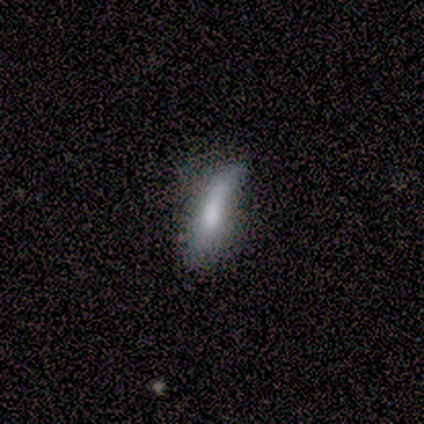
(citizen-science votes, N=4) A smooth galaxy with no disk features (50%) that is in between round and cigar-shaped (50%, tied with cigar-shaped).

Vote fractions:
- Smooth or featured? smooth: 50% / featured or disk: 25% / star or artifact: 25%
- How rounded? in between: 50% (tied) / cigar-shaped: 50% (tied) / round: 0%
- Merging? major disturbance: 67% / minor disturbance: 33% / none: 0% / merger: 0%